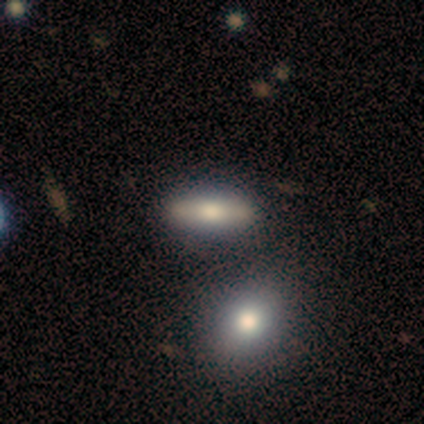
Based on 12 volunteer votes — smooth_or_featured: featured or disk (p=0.67) [alt: smooth p=0.25]
disk_edge_on: yes (p=0.62) [alt: no p=0.38]
edge_on_bulge: rounded (p=0.60) [alt: boxy p=0.40]
merging: none (p=0.91) [alt: major disturbance p=0.09]